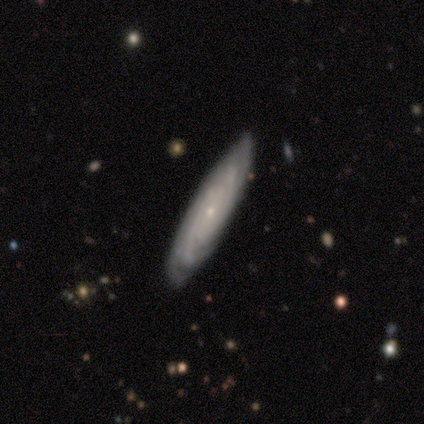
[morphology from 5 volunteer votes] This appears to be a featured or disk galaxy (100%) with no bar (60%), tight (80%) spiral arms (100%) and a small central bulge (100%). Merging: none (100%).